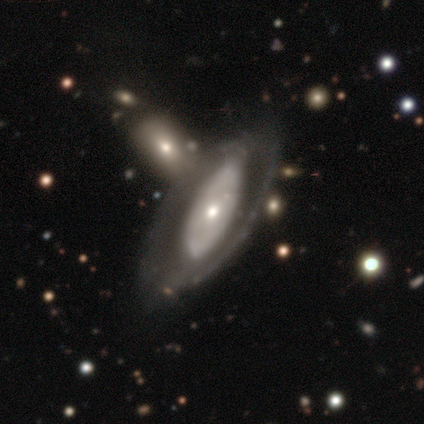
Overall: featured or disk (69%). Edge-on disk: no (81%). Bar: no (82%). Spiral arms: no (64%; yes 36%). Bulge size: small (50%; moderate 36%). Merging: none (45%; merger 32%).